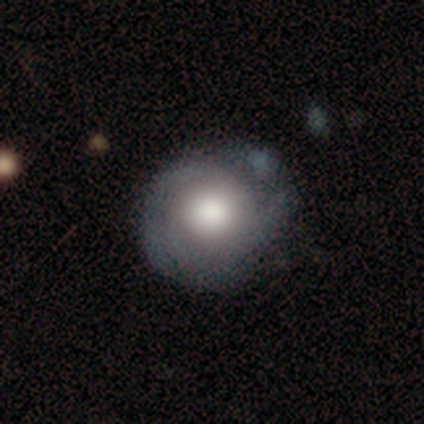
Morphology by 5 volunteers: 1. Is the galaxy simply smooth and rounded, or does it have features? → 60% smooth, 40% featured or disk, 0% star or artifact.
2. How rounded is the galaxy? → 100% round, 0% in between, 0% cigar-shaped.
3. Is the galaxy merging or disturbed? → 40% none (tied), 40% minor disturbance (tied), 20% merger, 0% major disturbance.